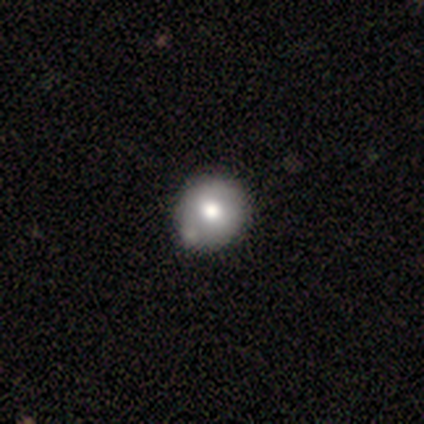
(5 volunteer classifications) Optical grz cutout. It shows a smooth galaxy with no disk features (40%, tied with star or artifact) that is round (100%). Merging: none (33%, tied with minor disturbance and merger).